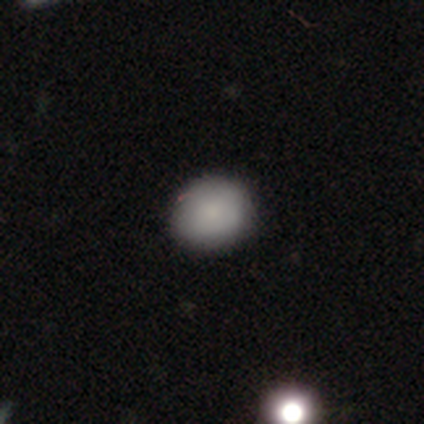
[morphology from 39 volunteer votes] Overall: smooth (92%). How rounded: round (69%; in between 31%). Merging: none (89%).